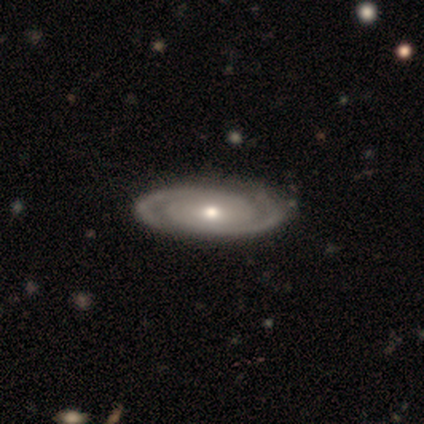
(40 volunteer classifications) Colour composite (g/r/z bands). It shows a featured or disk galaxy (90%) with no bar (69%), 2 (86%) tight (77%) spiral arms (100%) and a moderate central bulge (60%). Merging: none (71%).